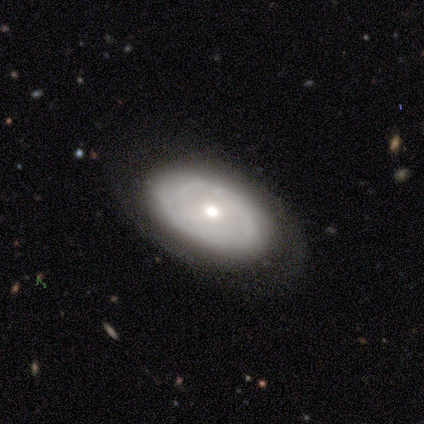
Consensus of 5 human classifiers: Morphology: type=featured or disk (60%); edge-on=no (100%); bar=no (100%); spiral arms=yes (67%); winding=tight (50%, tied with loose); arm count=2 (50%, tied with 3); bulge=moderate (100%); merging=none (100%).